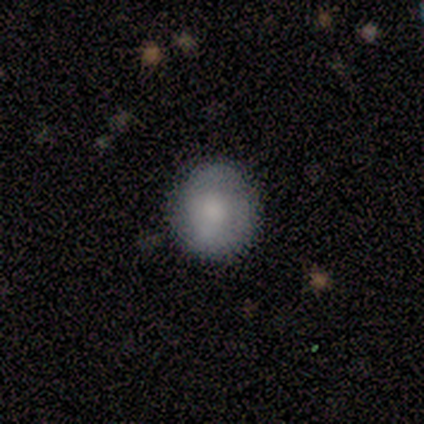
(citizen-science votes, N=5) smooth_or_featured: smooth (p=0.80) [alt: featured or disk p=0.20]
how_rounded: round (p=1.00)
merging: none (p=0.80) [alt: minor disturbance p=0.20]